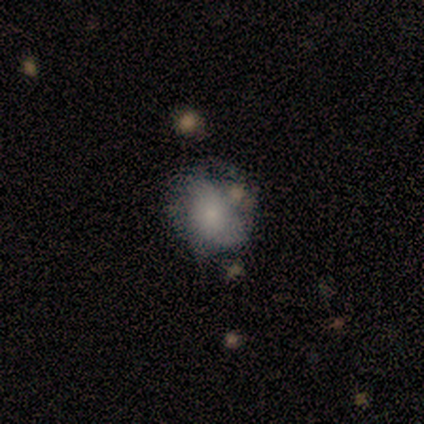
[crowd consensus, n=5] Smooth or featured? 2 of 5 (40%, tied with featured or disk) said smooth. How rounded? 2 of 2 (100%) said round. Merging? 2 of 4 (50%, tied with major disturbance) said none.